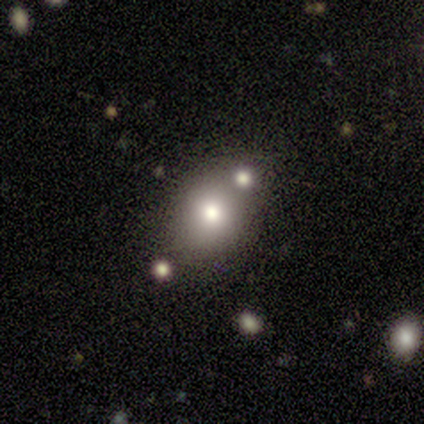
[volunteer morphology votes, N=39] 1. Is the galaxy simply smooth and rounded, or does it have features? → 62% smooth, 21% featured or disk, 18% star or artifact.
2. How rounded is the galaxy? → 67% round, 33% in between, 0% cigar-shaped.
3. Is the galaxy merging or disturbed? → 69% none, 12% minor disturbance, 9% major disturbance, 9% merger.